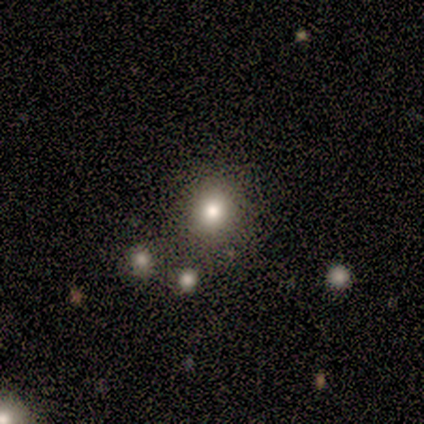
A smooth galaxy with no disk features (60%) that is round (100%). Merging: none (100%).